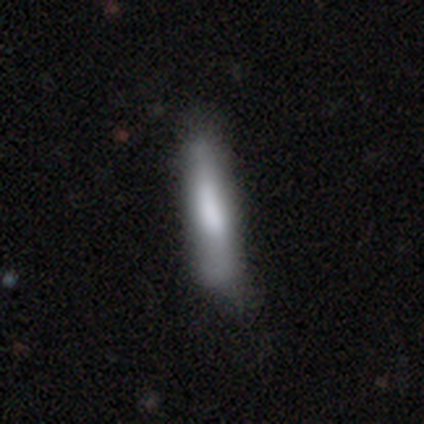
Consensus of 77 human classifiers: Volunteers were most divided on "merging": none: 41%, minor disturbance: 20%, major disturbance: 4%, merger: 4%. More confident: how rounded — cigar-shaped (92%); smooth or featured — smooth (62%).